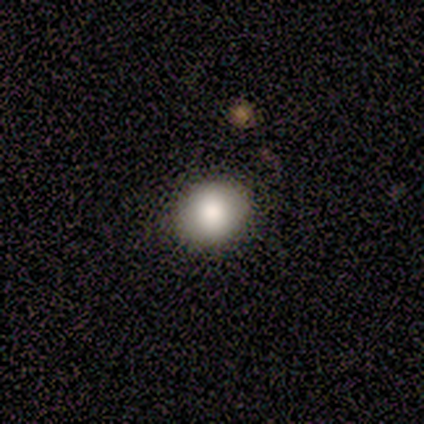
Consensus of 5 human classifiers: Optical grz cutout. It shows a smooth galaxy with no disk features (80%) that is round (75%). Merging: none (100%).